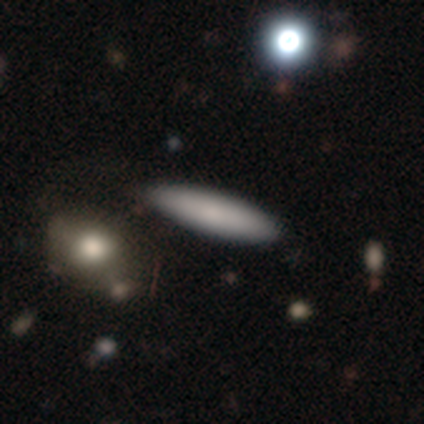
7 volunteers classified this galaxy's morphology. This appears to be a smooth galaxy with no disk features (86%) that is in between round and cigar-shaped (50%, tied with cigar-shaped). Merging: none (86%).